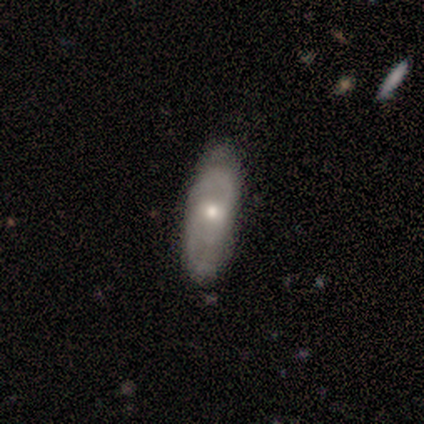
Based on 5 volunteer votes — Smooth or featured: featured or disk — 100%
Edge-on disk: no — 80% (yes — 20%)
Bar: weak — 50% (tied with no — 50%)
Spiral arms: yes — 100%
Spiral winding: tight — 50% (tied with medium — 50%)
Spiral arm count: 2 — 75% (can't tell — 25%)
Bulge size: moderate — 75% (small — 25%)
Merging: none — 80% (minor disturbance — 20%)